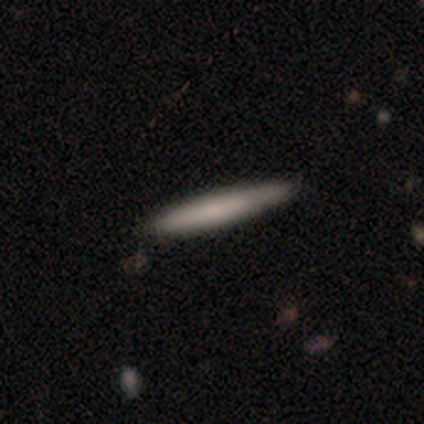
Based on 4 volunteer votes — smooth_or_featured: smooth (p=0.50) [tied with: featured or disk p=0.50]
how_rounded: cigar-shaped (p=1.00)
merging: none (p=1.00)